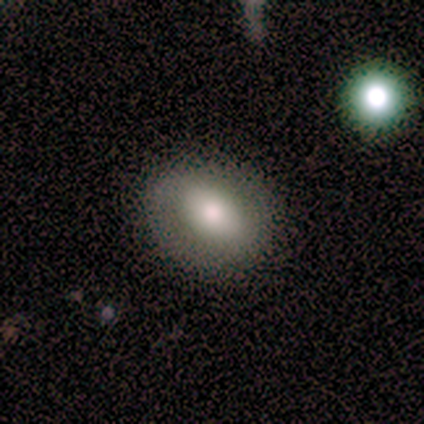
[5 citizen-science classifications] Smooth or featured?
  - smooth: 80% *
  - featured or disk: 20%
  - star or artifact: 0%
How rounded?
  - round: 50% * (tied)
  - in between: 50% * (tied)
  - cigar-shaped: 0%
Merging?
  - none: 60% *
  - minor disturbance: 40%
  - major disturbance: 0%
  - merger: 0%